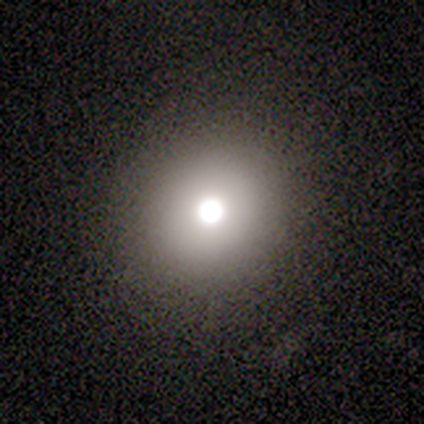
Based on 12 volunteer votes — A smooth galaxy with no disk features (83%) that is round (80%). Merging: none (83%).